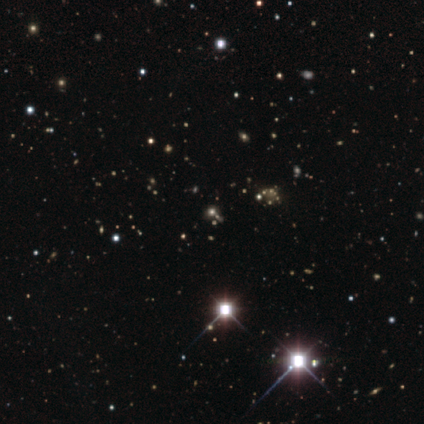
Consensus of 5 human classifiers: This appears to be a star or artifact, not a galaxy (80%).